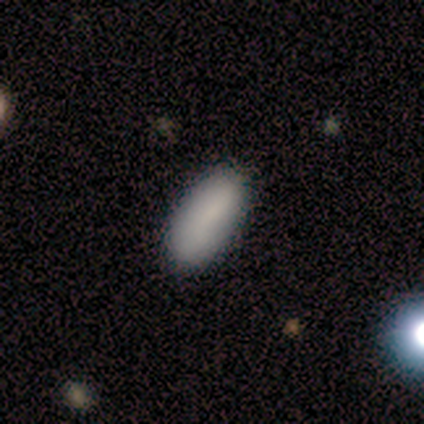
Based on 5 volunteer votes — This appears to be a smooth galaxy with no disk features (100%) that is in between round and cigar-shaped (60%). Merging: none (100%).